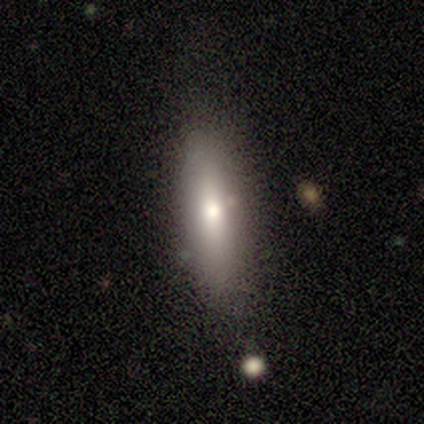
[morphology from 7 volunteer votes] This appears to be a smooth galaxy with no disk features (86%) that is cigar-shaped (50%). Merging: none (83%).